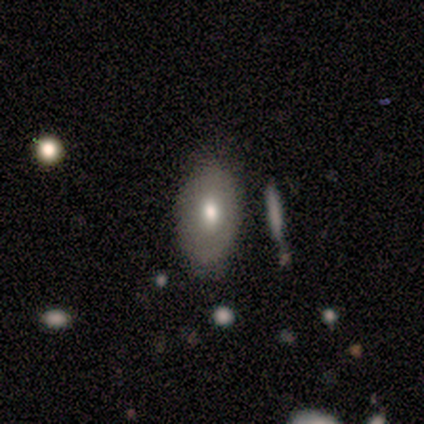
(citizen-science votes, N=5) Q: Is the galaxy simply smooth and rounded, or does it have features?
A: smooth — 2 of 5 (40%, tied with featured or disk).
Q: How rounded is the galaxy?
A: in between — 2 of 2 (100%).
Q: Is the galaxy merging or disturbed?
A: none — 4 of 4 (100%).